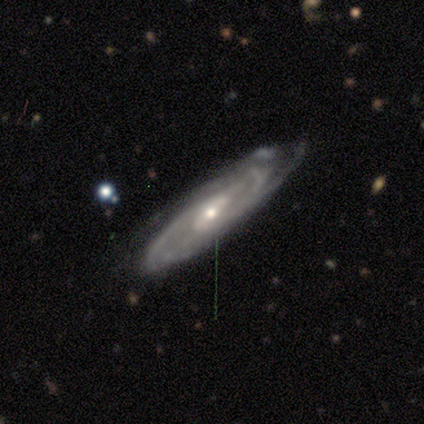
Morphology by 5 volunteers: A featured or disk galaxy (100%) with a strong bar (40%, tied with no), tight (80%) spiral arms (100%) and a small central bulge (80%). Merging: none (60%).